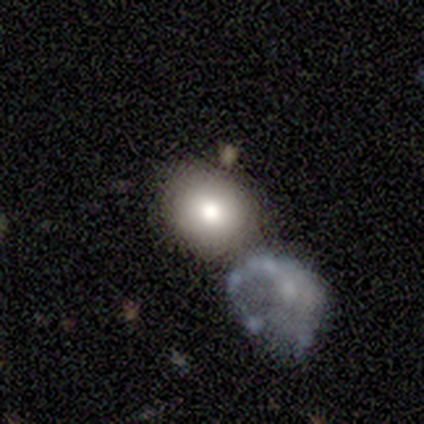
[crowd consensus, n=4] Volunteers were most divided on "merging" (2-way tie): none: 50%, merger: 50%, minor disturbance: 0%, major disturbance: 0%. More confident: smooth or featured — smooth (75%); how rounded — round (67%).